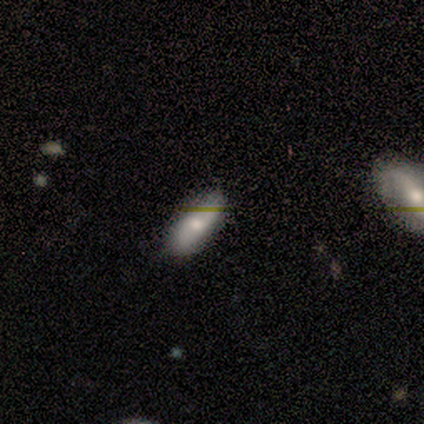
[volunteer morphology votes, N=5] smooth-or-featured: smooth: 40% (tied) | star or artifact: 40% (tied) | featured or disk: 20%
  how-rounded: in between: 100% | round: 0% | cigar-shaped: 0%
  merging: none: 100% | minor disturbance: 0% | major disturbance: 0% | merger: 0%